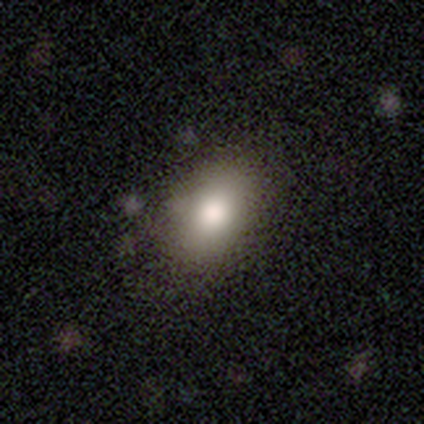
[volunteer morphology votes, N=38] A smooth galaxy with no disk features (71%) that is in between round and cigar-shaped (85%). Merging: none (60%).